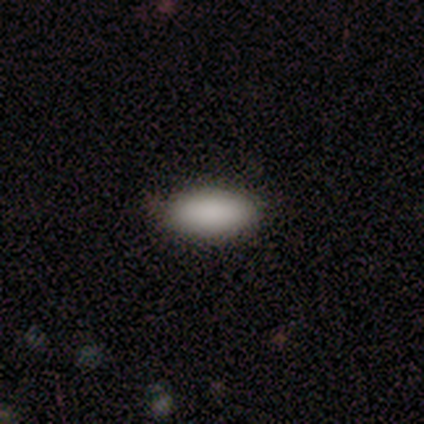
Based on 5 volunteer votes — This appears to be a smooth galaxy with no disk features (100%) that is in between round and cigar-shaped (100%). Merging: none (80%).